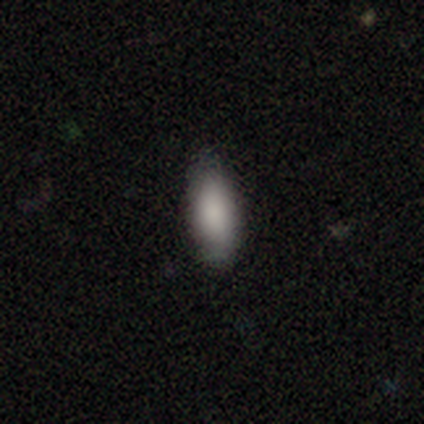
Overall: smooth (75%). How rounded: in between (67%; cigar-shaped 33%). Merging: none (100%).